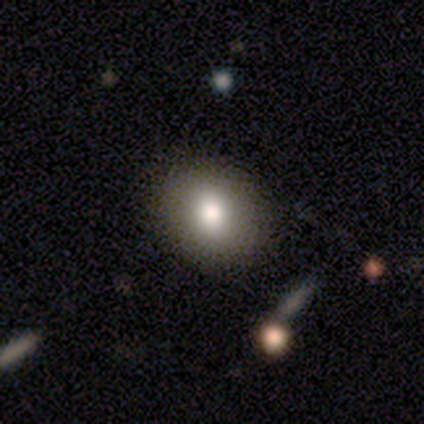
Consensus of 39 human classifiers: smooth 85%, featured or disk 10%, star or artifact 5%. Down the decision tree: how rounded — round (73%); merging — none (89%).